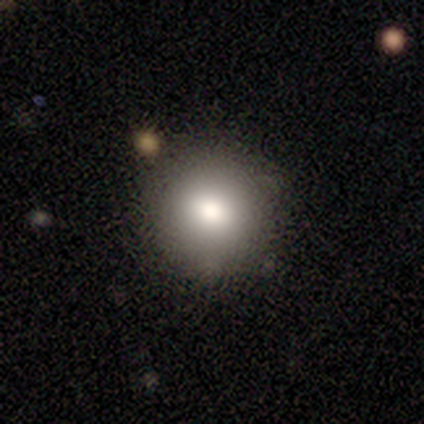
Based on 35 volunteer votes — smooth 71%, featured or disk 14%, star or artifact 14%. Down the decision tree: how rounded — round (96%); merging — none (97%).